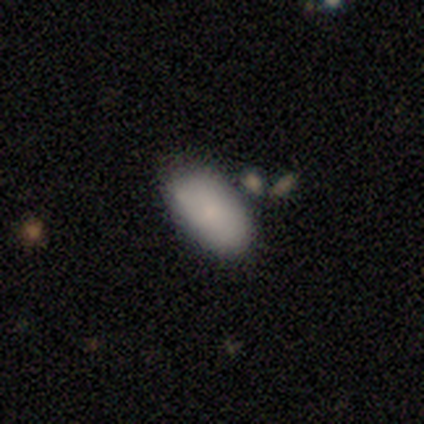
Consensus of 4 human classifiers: Consensus on every question: smooth or featured — smooth (100%); how rounded — in between (100%); merging — none (100%).